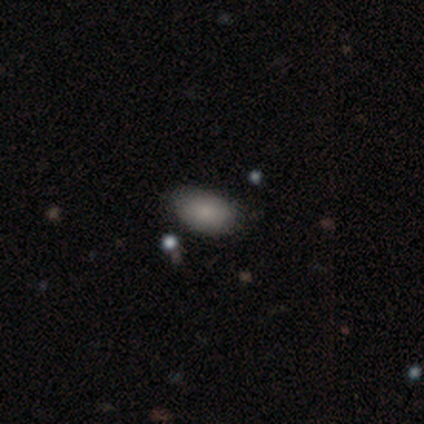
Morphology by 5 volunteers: smooth 80%, star or artifact 20%, featured or disk 0%. Down the decision tree: how rounded — in between (100%); merging — none (50%, tied with minor disturbance).